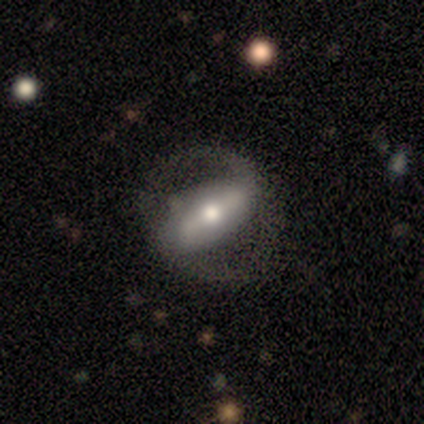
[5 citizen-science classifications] Smooth or featured?
  - featured or disk: 80% *
  - smooth: 20%
  - star or artifact: 0%
Edge-on disk?
  - no: 75% *
  - yes: 25%
Bar?
  - strong: 33% * (tied)
  - weak: 33% * (tied)
  - no: 33% * (tied)
Spiral arms?
  - yes: 100% *
  - no: 0%
Spiral winding?
  - tight: 67% *
  - loose: 33%
  - medium: 0%
Spiral arm count?
  - 2: 67% *
  - can't tell: 33%
  - 1: 0%
  - 3: 0%
  - 4: 0%
  - more than 4: 0%
Bulge size?
  - moderate: 67% *
  - small: 33%
  - dominant: 0%
  - large: 0%
  - none: 0%
Merging?
  - major disturbance: 60% *
  - none: 20%
  - minor disturbance: 20%
  - merger: 0%